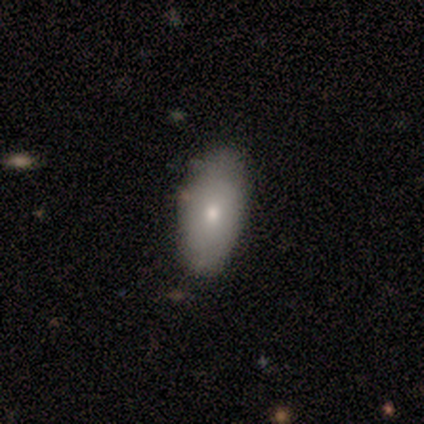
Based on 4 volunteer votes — A smooth galaxy with no disk features (75%) that is in between round and cigar-shaped (100%).

Vote fractions:
- Smooth or featured? smooth: 75% / featured or disk: 25% / star or artifact: 0%
- How rounded? in between: 100% / round: 0% / cigar-shaped: 0%
- Merging? none: 50% (tied) / minor disturbance: 50% (tied) / major disturbance: 0% / merger: 0%